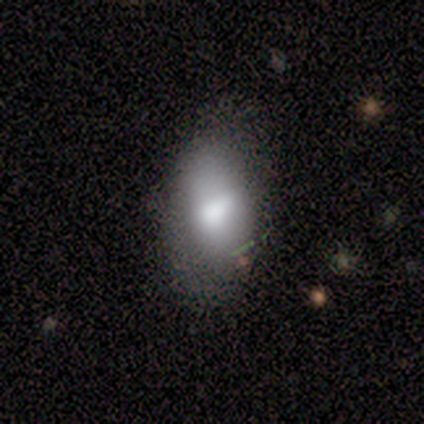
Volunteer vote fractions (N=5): Smooth or featured? 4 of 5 (80%) said smooth. How rounded? 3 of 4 (75%) said in between. Merging? 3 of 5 (60%) said minor disturbance.